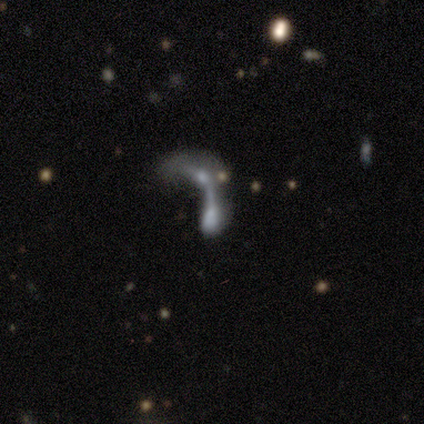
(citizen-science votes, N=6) Smooth or featured? 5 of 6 (83%) said featured or disk. Edge-on disk? 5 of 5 (100%) said no. Bar? 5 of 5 (100%) said no. Spiral arms? 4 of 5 (80%) said no. Bulge size? 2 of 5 (40%, tied with none) said moderate. Merging? 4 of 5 (80%) said merger.